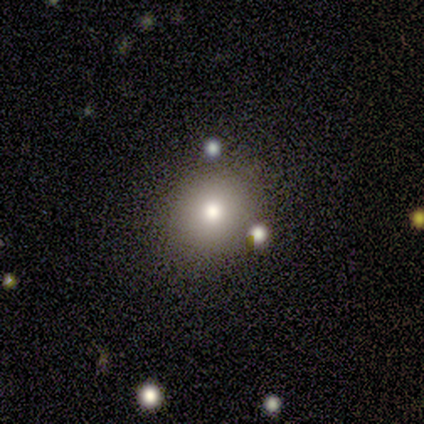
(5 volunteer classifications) smooth 100%, featured or disk 0%, star or artifact 0%. Down the decision tree: how rounded — round (100%); merging — none (60%).